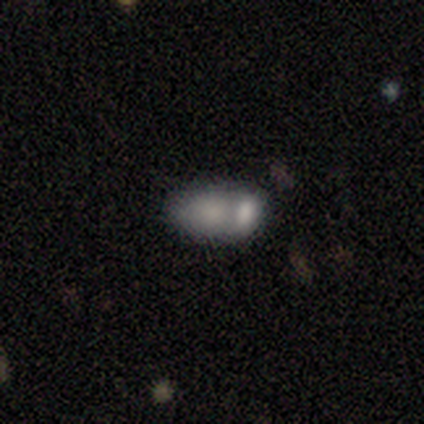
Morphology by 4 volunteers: This is likely a smooth galaxy (75%). How rounded: clearly in between (100%). Merging: likely merger (75%).